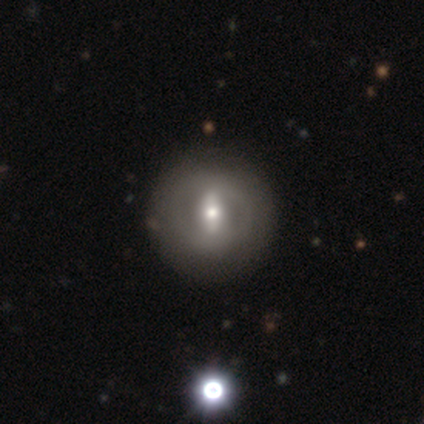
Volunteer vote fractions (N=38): Smooth or featured?
  - featured or disk: 61% *
  - smooth: 37%
  - star or artifact: 3%
Edge-on disk?
  - no: 96% *
  - yes: 4%
Bar?
  - weak: 41% *
  - strong: 36%
  - no: 23%
Spiral arms?
  - no: 82% *
  - yes: 18%
Bulge size?
  - moderate: 68% *
  - small: 32%
  - dominant: 0%
  - large: 0%
  - none: 0%
Merging?
  - none: 70% *
  - merger: 3%
  - minor disturbance: 0%
  - major disturbance: 0%